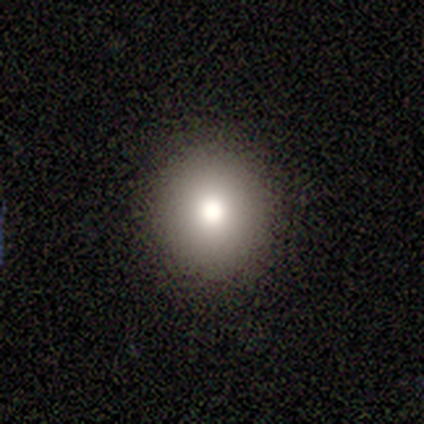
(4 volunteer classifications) Morphology: type=smooth (100%); roundness=round (100%); merging=none (100%).